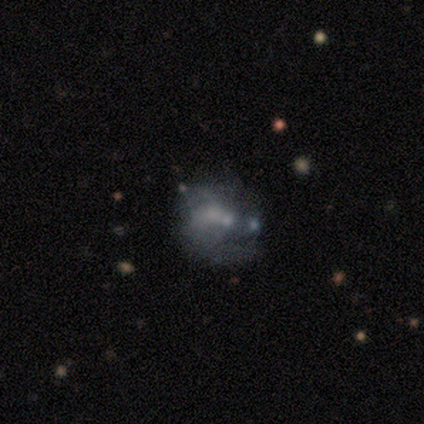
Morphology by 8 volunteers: This appears to be a featured or disk galaxy (62%) with no bar (80%), no spiral arms (80%) and a small central bulge (80%). Merging: merger (57%).